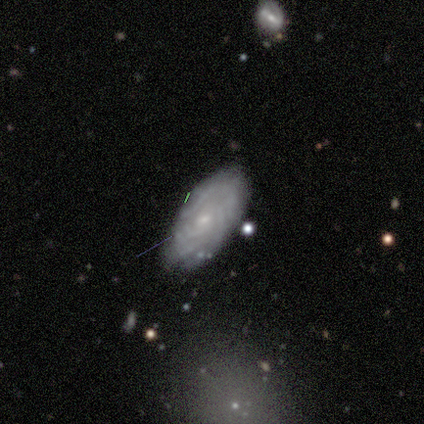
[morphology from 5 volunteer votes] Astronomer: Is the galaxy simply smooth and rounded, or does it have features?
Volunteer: featured or disk — 100%.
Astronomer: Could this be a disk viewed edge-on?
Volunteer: no — 100%.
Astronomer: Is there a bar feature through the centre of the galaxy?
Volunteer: no — 100%.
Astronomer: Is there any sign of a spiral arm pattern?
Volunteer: yes — 100%.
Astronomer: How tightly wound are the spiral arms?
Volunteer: tight — 80%.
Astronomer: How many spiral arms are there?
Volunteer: can't tell — 60%.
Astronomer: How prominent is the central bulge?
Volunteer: small — 80%.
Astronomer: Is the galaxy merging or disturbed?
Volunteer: none — 100%.